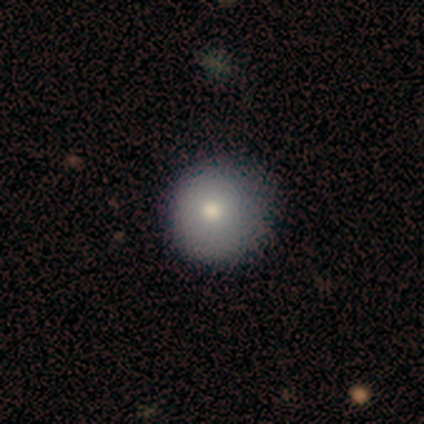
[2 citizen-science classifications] Consensus on every question: smooth or featured — smooth (100%); how rounded — round (100%); merging — none (100%).